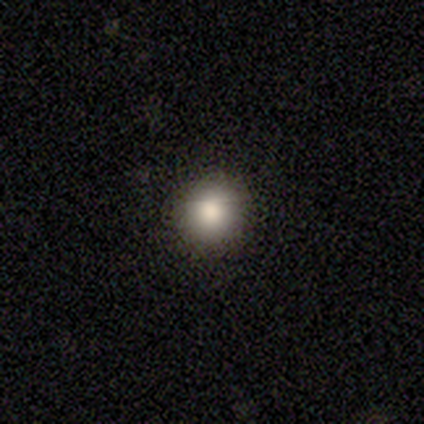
A smooth galaxy with no disk features (100%) that is round (100%).

Vote fractions:
- Smooth or featured? smooth: 100% / featured or disk: 0% / star or artifact: 0%
- How rounded? round: 100% / in between: 0% / cigar-shaped: 0%
- Merging? none: 100% / minor disturbance: 0% / major disturbance: 0% / merger: 0%